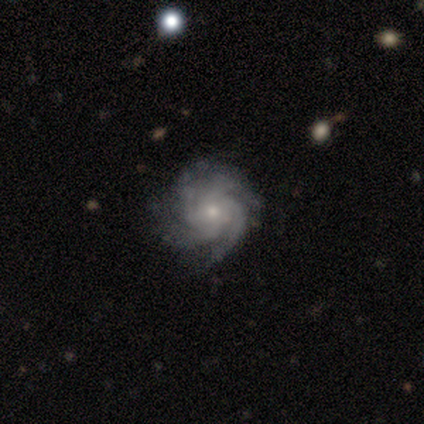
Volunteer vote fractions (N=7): Smooth or featured?
  - featured or disk: 100% *
  - smooth: 0%
  - star or artifact: 0%
Edge-on disk?
  - no: 100% *
  - yes: 0%
Bar?
  - no: 71% *
  - strong: 14%
  - weak: 14%
Spiral arms?
  - yes: 100% *
  - no: 0%
Spiral winding?
  - tight: 57% *
  - medium: 43%
  - loose: 0%
Spiral arm count?
  - 4: 71% *
  - can't tell: 29%
  - 1: 0%
  - 2: 0%
  - 3: 0%
  - more than 4: 0%
Bulge size?
  - small: 71% *
  - large: 14%
  - moderate: 14%
  - dominant: 0%
  - none: 0%
Merging?
  - none: 86% *
  - minor disturbance: 14%
  - major disturbance: 0%
  - merger: 0%